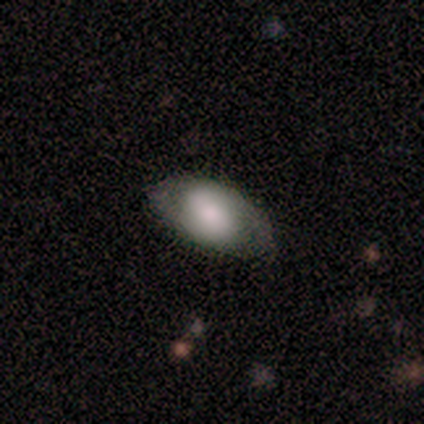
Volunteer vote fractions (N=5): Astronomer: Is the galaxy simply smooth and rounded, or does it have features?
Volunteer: featured or disk — 60% (runner-up: smooth, 40%).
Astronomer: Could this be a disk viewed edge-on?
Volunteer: no — 100%.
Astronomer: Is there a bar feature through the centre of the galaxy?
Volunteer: no — 67%.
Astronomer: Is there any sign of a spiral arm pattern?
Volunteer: no — 67%.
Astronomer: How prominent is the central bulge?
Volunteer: dominant — 33%, tied with moderate and small at 33%.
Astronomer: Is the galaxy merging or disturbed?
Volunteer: none — 80%.